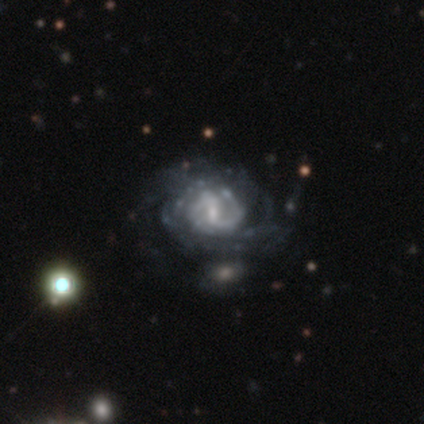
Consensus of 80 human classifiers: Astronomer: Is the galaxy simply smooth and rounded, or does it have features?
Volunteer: featured or disk — 91%.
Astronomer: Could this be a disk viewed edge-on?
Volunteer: no — 97%.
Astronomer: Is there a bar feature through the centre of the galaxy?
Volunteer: weak — 61%.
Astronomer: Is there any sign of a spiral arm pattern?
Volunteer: yes — 93%.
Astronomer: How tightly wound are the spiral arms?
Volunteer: tight — 50% (runner-up: medium, 32%).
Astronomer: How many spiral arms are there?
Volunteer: can't tell — 42% (runner-up: 2, 41%).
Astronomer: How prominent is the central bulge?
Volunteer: small — 56%.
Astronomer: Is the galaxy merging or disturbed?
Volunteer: none — 24% (runner-up: minor disturbance, 12%).